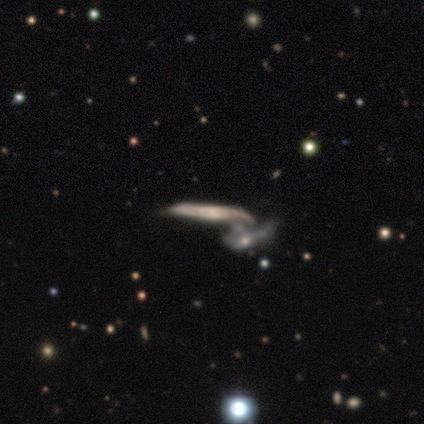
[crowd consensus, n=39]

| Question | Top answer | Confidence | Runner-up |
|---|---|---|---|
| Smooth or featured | featured or disk | 72% | smooth (21%) |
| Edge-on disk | yes | 68% | no (32%) |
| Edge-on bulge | none | 58% | rounded (37%) |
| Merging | merger | 89% | none (6%) |